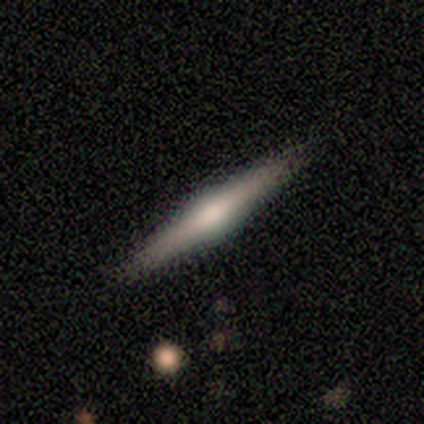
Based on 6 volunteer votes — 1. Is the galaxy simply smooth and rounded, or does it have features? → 83% smooth, 17% featured or disk, 0% star or artifact.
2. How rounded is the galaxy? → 100% cigar-shaped, 0% round, 0% in between.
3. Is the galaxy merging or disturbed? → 100% none, 0% minor disturbance, 0% major disturbance, 0% merger.